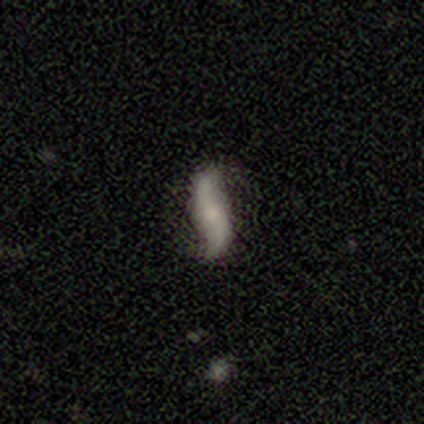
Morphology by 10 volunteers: Smooth or featured? featured or disk (90%)
Edge-on disk? no (100%)
Bar? no (67%)
Spiral arms? yes (100%)
Spiral winding? loose (100%)
Spiral arm count? 2 (100%)
Bulge size? small (44%)
Merging? none (90%)